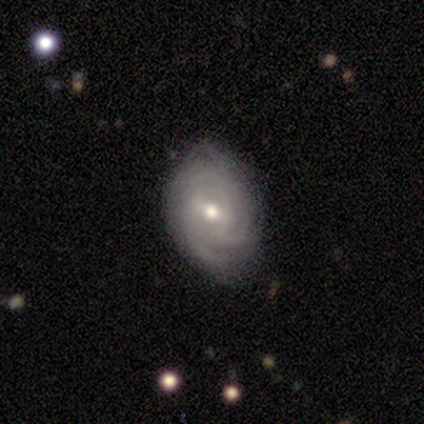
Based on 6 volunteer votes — Overall: featured or disk (100%). Edge-on disk: no (100%). Bar: weak (83%). Spiral arms: yes (83%). Spiral arm count: 3 (40%, tied with can't tell). Spiral winding: tight (100%). Bulge size: moderate (83%). Merging: none (83%).